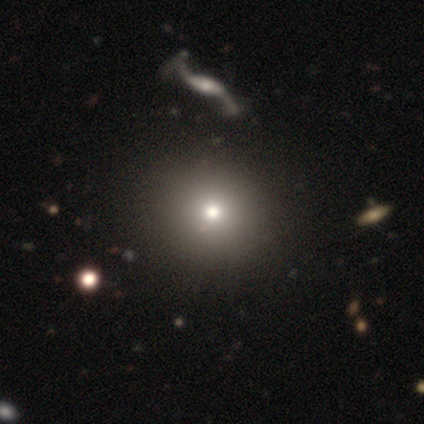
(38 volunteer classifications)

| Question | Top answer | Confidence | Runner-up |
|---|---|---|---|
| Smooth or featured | smooth | 71% | star or artifact (16%) |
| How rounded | round | 96% | in between (4%) |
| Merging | none | 59% | merger (9%) |